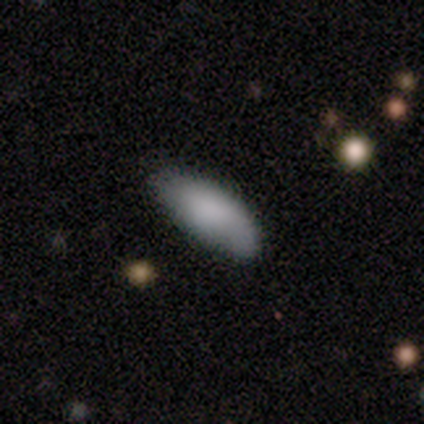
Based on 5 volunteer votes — This appears to be a smooth galaxy with no disk features (80%) that is in between round and cigar-shaped (100%). Merging: none (80%).